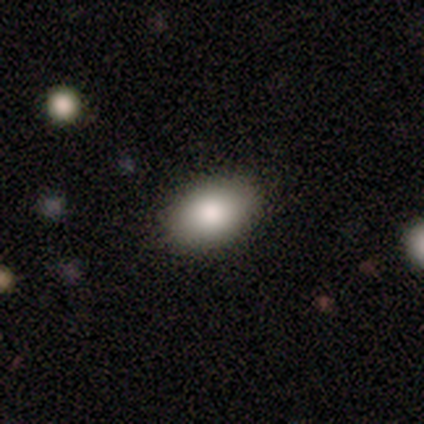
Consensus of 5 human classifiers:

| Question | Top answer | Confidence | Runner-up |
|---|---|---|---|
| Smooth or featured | smooth | 80% | featured or disk (20%) |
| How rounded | in between | 100% | — |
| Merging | none | 80% | merger (20%) |